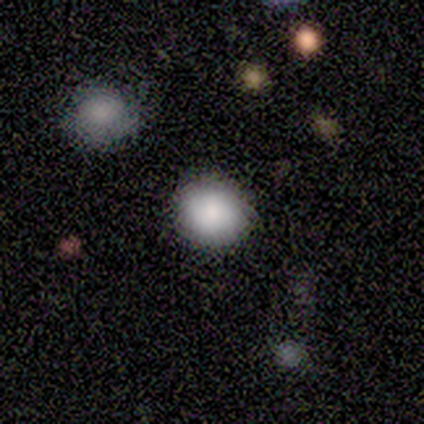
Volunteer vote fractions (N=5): Smooth or featured?
  - smooth: 80% *
  - star or artifact: 20%
  - featured or disk: 0%
How rounded?
  - round: 100% *
  - in between: 0%
  - cigar-shaped: 0%
Merging?
  - none: 100% *
  - minor disturbance: 0%
  - major disturbance: 0%
  - merger: 0%